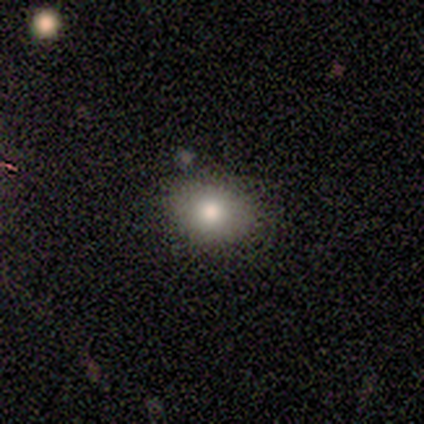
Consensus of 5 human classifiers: Smooth or featured: smooth — 80% (featured or disk — 20%)
How rounded: in between — 75% (round — 25%)
Merging: none — 80% (minor disturbance — 20%)